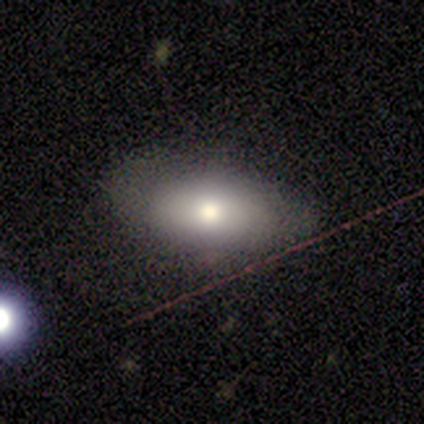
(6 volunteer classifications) Volunteers were most divided on "merging": none: 60%, minor disturbance: 40%, major disturbance: 0%, merger: 0%. More confident: how rounded — in between (100%); smooth or featured — smooth (67%).